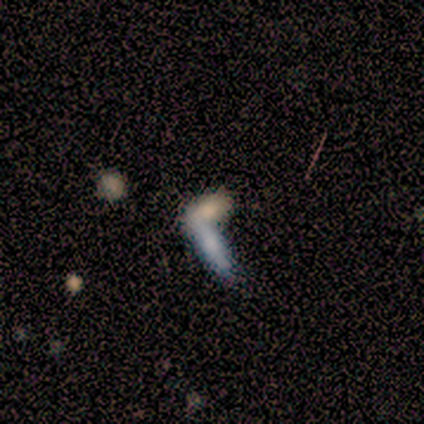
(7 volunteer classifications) Smooth or featured? 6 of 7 (86%) said smooth. How rounded? 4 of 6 (67%) said in between. Merging? 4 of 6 (67%) said none.